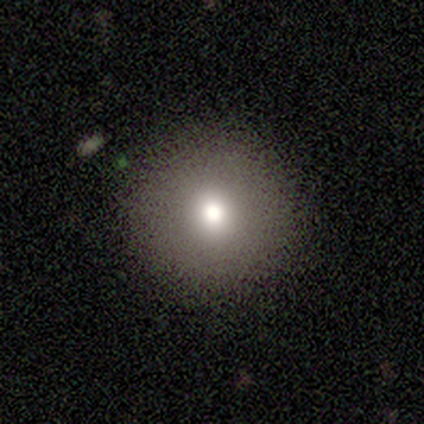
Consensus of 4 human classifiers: A smooth galaxy with no disk features (50%) that is round (100%).

Vote fractions:
- Smooth or featured? smooth: 50% / featured or disk: 25% / star or artifact: 25%
- How rounded? round: 100% / in between: 0% / cigar-shaped: 0%
- Merging? none: 100% / minor disturbance: 0% / major disturbance: 0% / merger: 0%